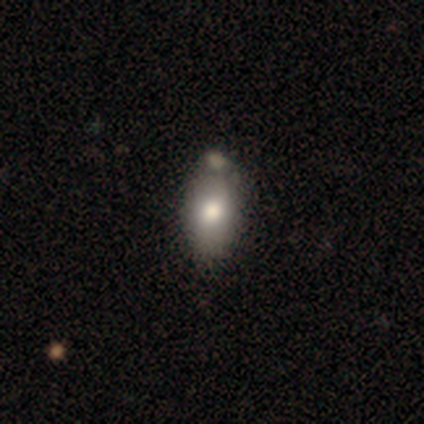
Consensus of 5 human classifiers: This is clearly a smooth galaxy (100%). How rounded: clearly in between (100%). Merging: marginally none (40%, tied with minor disturbance).